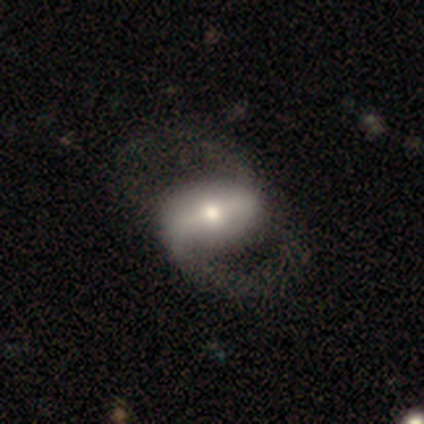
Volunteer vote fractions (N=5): smooth_or_featured: featured or disk (p=0.60) [alt: smooth p=0.20]
disk_edge_on: no (p=1.00)
bar: strong (p=0.67) [alt: no p=0.33]
has_spiral_arms: yes (p=1.00)
spiral_winding: medium (p=0.67) [alt: loose p=0.33]
spiral_arm_count: 2 (p=1.00)
bulge_size: moderate (p=0.67) [alt: small p=0.33]
merging: none (p=0.75) [alt: major disturbance p=0.25]